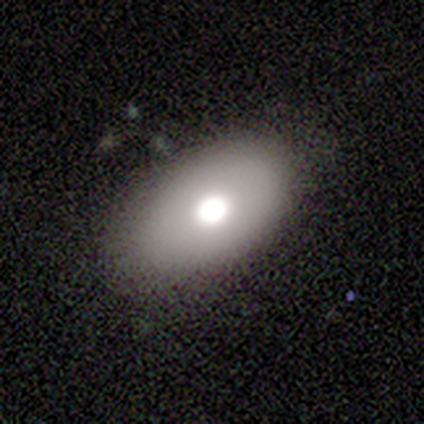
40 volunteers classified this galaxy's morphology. smooth-or-featured: smooth: 78% | featured or disk: 15% | star or artifact: 8%
  how-rounded: in between: 97% | round: 3% | cigar-shaped: 0%
  merging: none: 86% | minor disturbance: 8% | major disturbance: 5% | merger: 0%